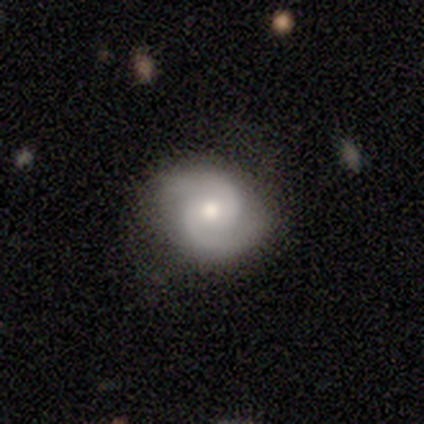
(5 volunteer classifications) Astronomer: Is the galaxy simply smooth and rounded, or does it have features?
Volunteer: featured or disk — 100%.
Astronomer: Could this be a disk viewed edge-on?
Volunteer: no — 100%.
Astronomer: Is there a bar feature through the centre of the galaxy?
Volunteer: no — 60% (runner-up: weak, 40%).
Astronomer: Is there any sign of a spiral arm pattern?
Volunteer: yes — 100%.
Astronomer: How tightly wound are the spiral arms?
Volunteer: medium — 80%.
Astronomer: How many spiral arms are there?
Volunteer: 2 — 100%.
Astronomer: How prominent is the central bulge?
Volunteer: moderate — 80%.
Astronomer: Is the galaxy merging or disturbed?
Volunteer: none — 100%.